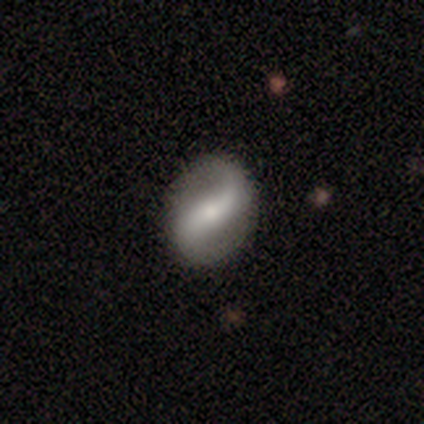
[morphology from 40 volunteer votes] Q: Smooth or featured?
A: featured or disk (95%); runner-up: smooth (5%)
Q: Edge-on disk?
A: no (97%); runner-up: yes (3%)
Q: Bar?
A: strong (38%); runner-up: weak (35%)
Q: Spiral arms?
A: yes (89%); runner-up: no (11%)
Q: Spiral winding?
A: loose (79%); runner-up: medium (21%)
Q: Spiral arm count?
A: 2 (94%); runner-up: 1 (3%)
Q: Bulge size?
A: small (62%); runner-up: moderate (32%)
Q: Merging?
A: none (78%); runner-up: minor disturbance (5%)